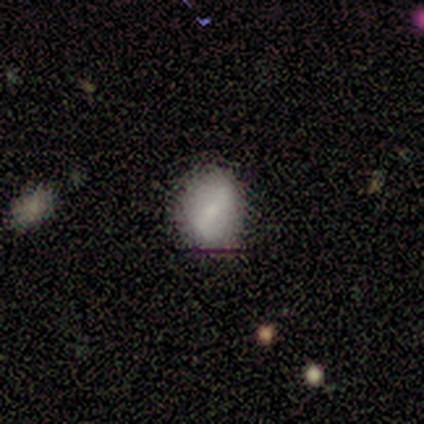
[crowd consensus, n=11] A smooth galaxy with no disk features (73%) that is in between round and cigar-shaped (62%).

Vote fractions:
- Smooth or featured? smooth: 73% / featured or disk: 18% / star or artifact: 9%
- How rounded? in between: 62% / round: 38% / cigar-shaped: 0%
- Merging? none: 60% / minor disturbance: 20% / major disturbance: 20% / merger: 0%